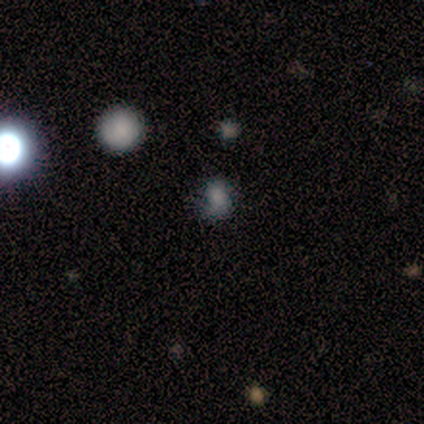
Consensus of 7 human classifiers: This is likely a smooth galaxy (71%). How rounded: clearly in between (80%). Merging: marginally none (33%, tied with minor disturbance and major disturbance).